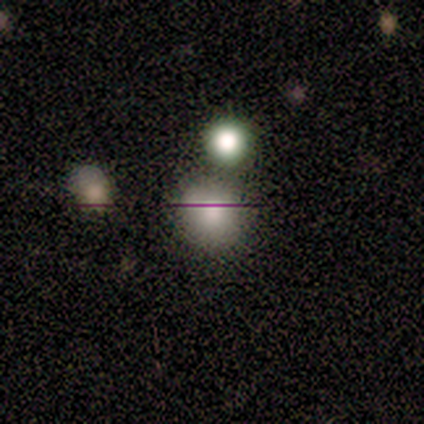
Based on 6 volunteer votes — smooth-or-featured: smooth: 67% | featured or disk: 17% | star or artifact: 17%
  how-rounded: round: 100% | in between: 0% | cigar-shaped: 0%
  merging: none: 60% | minor disturbance: 20% | merger: 20% | major disturbance: 0%